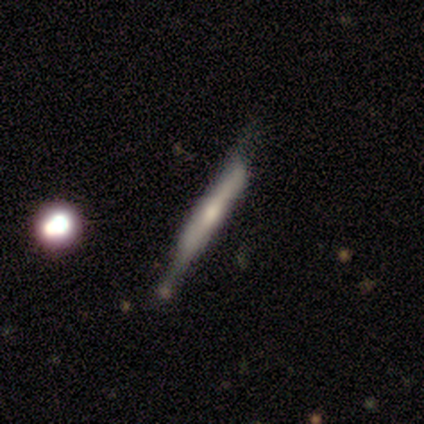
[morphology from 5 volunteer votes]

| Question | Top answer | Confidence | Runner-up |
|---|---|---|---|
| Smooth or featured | featured or disk | 60% | smooth (40%) |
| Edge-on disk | yes | 100% | — |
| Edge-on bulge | boxy | 33% | tied: none (33%), rounded (33%) |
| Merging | none | 60% | minor disturbance (40%) |